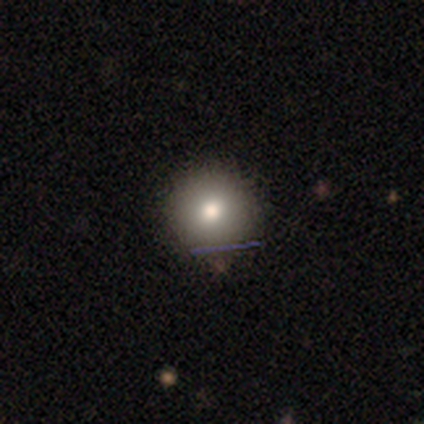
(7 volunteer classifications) smooth_or_featured: smooth (p=0.71) [alt: star or artifact p=0.29]
how_rounded: round (p=1.00)
merging: none (p=1.00)